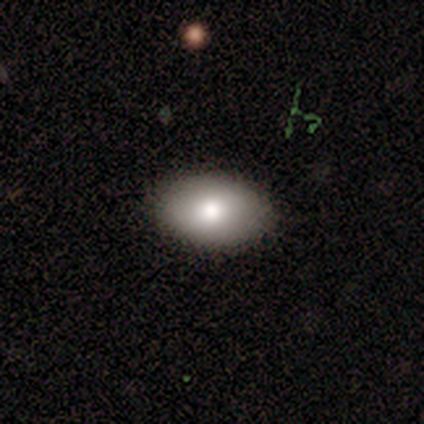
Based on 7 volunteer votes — Smooth or featured? smooth (71%)
How rounded? in between (100%)
Merging? none (60%)